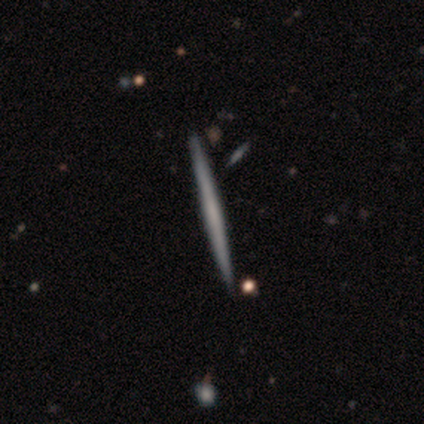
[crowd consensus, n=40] Morphology: type=featured or disk (57%); edge-on=yes (100%); edge-on bulge=none (78%); merging=none (95%).